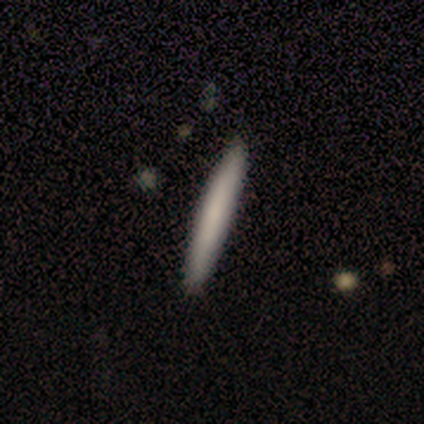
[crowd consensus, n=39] smooth-or-featured: smooth: 72% | featured or disk: 28% | star or artifact: 0%
  how-rounded: cigar-shaped: 100% | round: 0% | in between: 0%
  merging: none: 74% | minor disturbance: 0% | major disturbance: 0% | merger: 0%